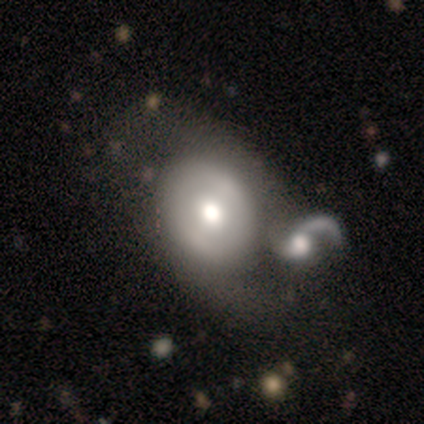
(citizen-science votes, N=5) Overall: featured or disk (60%; smooth 40%). Edge-on disk: no (100%). Bar: weak (67%; no 33%). Spiral arms: yes (67%; no 33%). Spiral arm count: 2 (100%). Spiral winding: loose (100%). Bulge size: large (33%, tied with moderate and small). Merging: merger (80%).